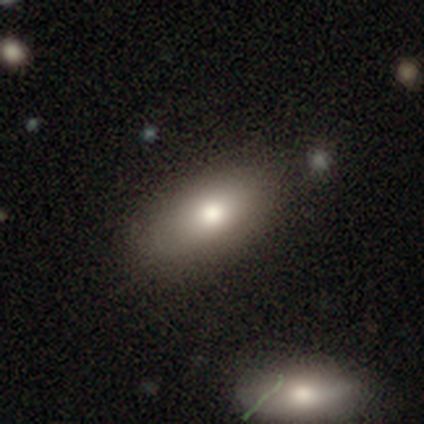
Volunteers were most divided on "merging": none: 41%, minor disturbance: 9%, merger: 7%, major disturbance: 0%. More confident: how rounded — in between (93%); smooth or featured — smooth (86%).